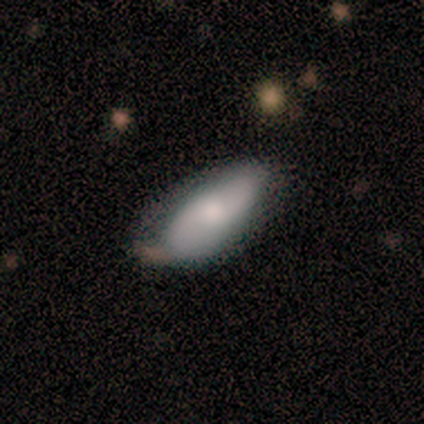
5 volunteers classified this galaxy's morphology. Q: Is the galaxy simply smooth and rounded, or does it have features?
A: smooth — 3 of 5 (60%).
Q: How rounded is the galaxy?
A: in between — 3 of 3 (100%).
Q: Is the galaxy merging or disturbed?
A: none — 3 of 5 (60%).